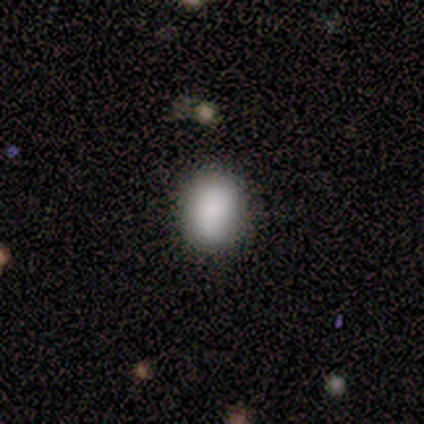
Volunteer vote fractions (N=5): A smooth galaxy with no disk features (100%) that is round (60%).

Vote fractions:
- Smooth or featured? smooth: 100% / featured or disk: 0% / star or artifact: 0%
- How rounded? round: 60% / in between: 40% / cigar-shaped: 0%
- Merging? none: 80% / minor disturbance: 20% / major disturbance: 0% / merger: 0%